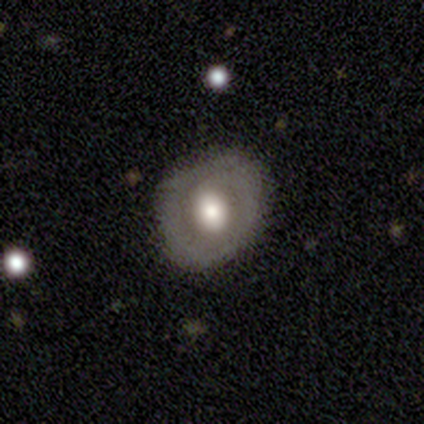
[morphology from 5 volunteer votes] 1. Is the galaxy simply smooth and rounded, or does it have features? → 80% featured or disk, 20% smooth, 0% star or artifact.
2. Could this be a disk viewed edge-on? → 75% no, 25% yes.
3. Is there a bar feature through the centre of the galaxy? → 67% no, 33% weak, 0% strong.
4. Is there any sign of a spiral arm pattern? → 67% no, 33% yes.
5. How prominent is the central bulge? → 67% large, 33% moderate, 0% dominant, 0% small, 0% none.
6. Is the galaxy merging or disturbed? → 80% none, 20% minor disturbance, 0% major disturbance, 0% merger.